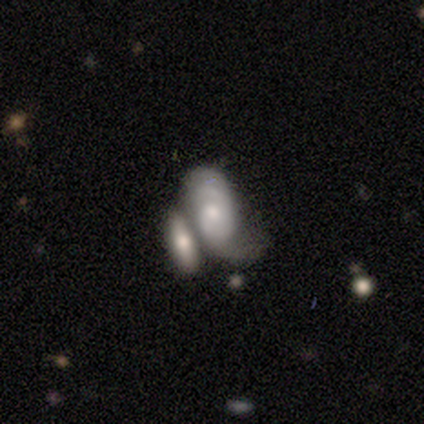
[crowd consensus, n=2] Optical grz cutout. It shows a featured or disk galaxy (50%, tied with star or artifact) with no bar (100%), 2 (100%) medium (100%) spiral arms (100%) and no central bulge (100%). Merging: minor disturbance (100%).